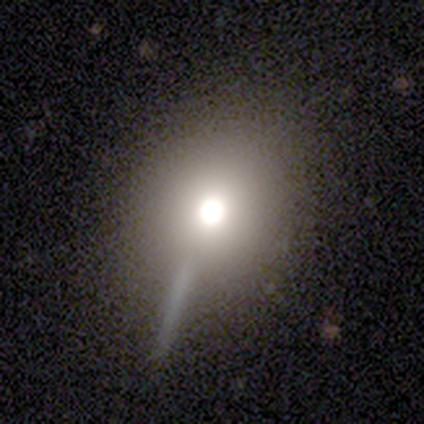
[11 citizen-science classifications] Smooth or featured?
  - smooth: 82% *
  - featured or disk: 9%
  - star or artifact: 9%
How rounded?
  - round: 67% *
  - in between: 33%
  - cigar-shaped: 0%
Merging?
  - none: 90% *
  - minor disturbance: 10%
  - major disturbance: 0%
  - merger: 0%